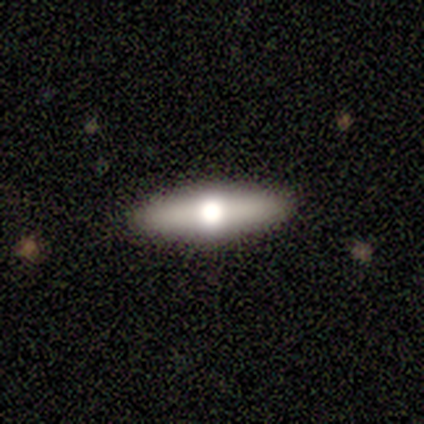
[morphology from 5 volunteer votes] smooth 80%, featured or disk 20%, star or artifact 0%. Down the decision tree: how rounded — cigar-shaped (75%); merging — none (100%).